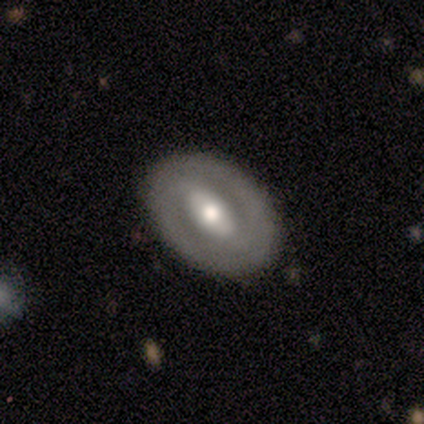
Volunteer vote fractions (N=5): Smooth or featured? 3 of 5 (60%) said featured or disk. Edge-on disk? 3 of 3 (100%) said no. Bar? 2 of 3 (67%) said weak. Spiral arms? 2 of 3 (67%) said no. Bulge size? 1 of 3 (33%, tied with moderate and small) said large. Merging? 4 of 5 (80%) said none.